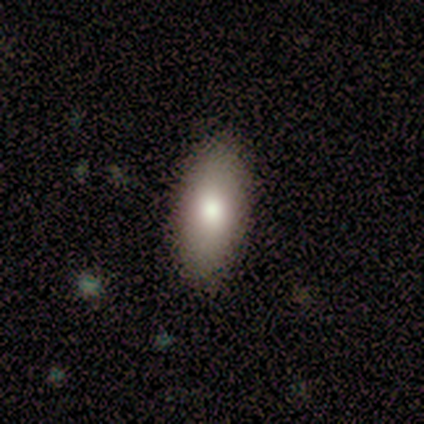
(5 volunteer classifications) smooth 100%, featured or disk 0%, star or artifact 0%. Down the decision tree: how rounded — in between (100%); merging — none (100%).